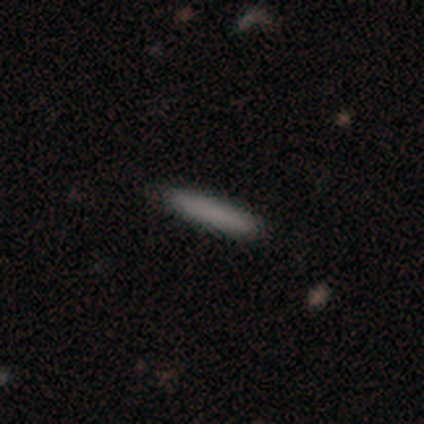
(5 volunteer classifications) Smooth or featured? smooth (80%)
How rounded? in between (50%, tied with cigar-shaped)
Merging? none (80%)